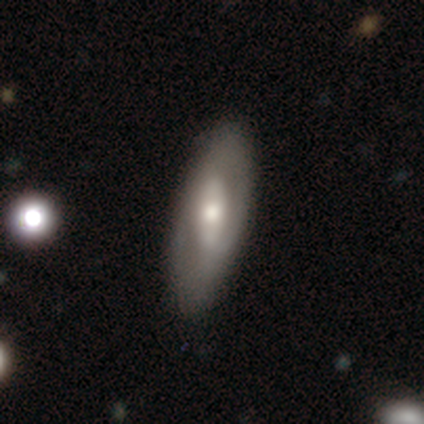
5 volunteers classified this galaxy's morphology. smooth-or-featured: featured or disk: 60% | smooth: 40% | star or artifact: 0%
  disk-edge-on: yes: 67% | no: 33%
    edge-on-bulge: none: 50% (tied) | rounded: 50% (tied) | boxy: 0%
  merging: none: 60% | minor disturbance: 40% | major disturbance: 0% | merger: 0%